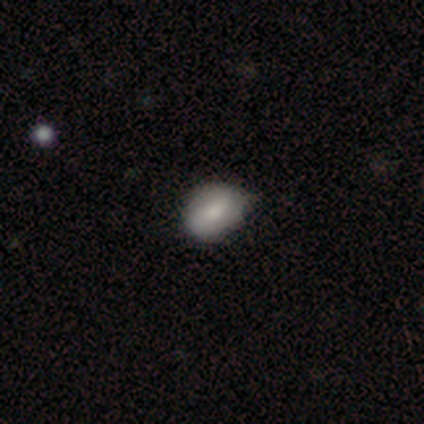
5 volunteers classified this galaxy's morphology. A featured or disk galaxy (60%) with a weak bar (50%, tied with no), no spiral arms (100%) and a moderate central bulge (50%, tied with none).

Vote fractions:
- Smooth or featured? featured or disk: 60% / smooth: 40% / star or artifact: 0%
- Edge-on disk? no: 67% / yes: 33%
- Bar? weak: 50% (tied) / no: 50% (tied) / strong: 0%
- Spiral arms? no: 100% / yes: 0%
- Bulge size? moderate: 50% (tied) / none: 50% (tied) / dominant: 0% / large: 0% / small: 0%
- Merging? none: 60% / minor disturbance: 20% / merger: 20% / major disturbance: 0%